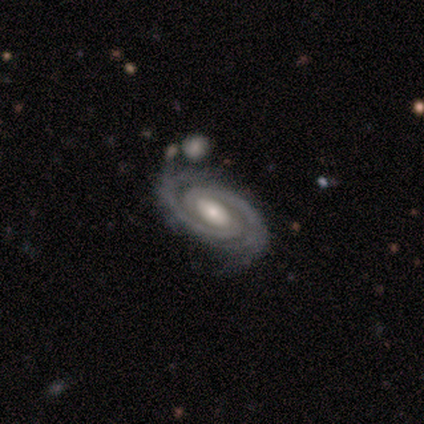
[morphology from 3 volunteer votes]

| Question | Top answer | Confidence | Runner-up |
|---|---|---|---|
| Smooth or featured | featured or disk | 100% | — |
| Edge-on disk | no | 100% | — |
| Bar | weak | 67% | no (33%) |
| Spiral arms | yes | 100% | — |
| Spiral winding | tight | 67% | medium (33%) |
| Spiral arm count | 2 | 100% | — |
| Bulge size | small | 67% | moderate (33%) |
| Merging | none | 67% | merger (33%) |